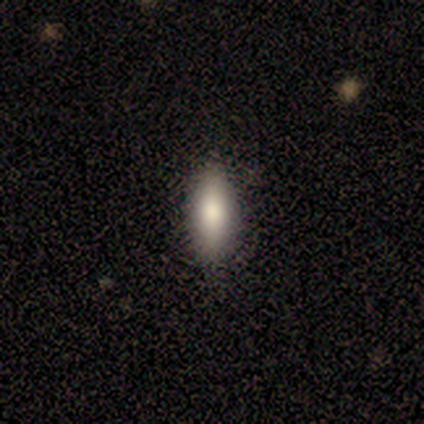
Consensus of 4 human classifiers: A smooth galaxy with no disk features (75%) that is round (33%, tied with in between and cigar-shaped). Merging: none (67%).